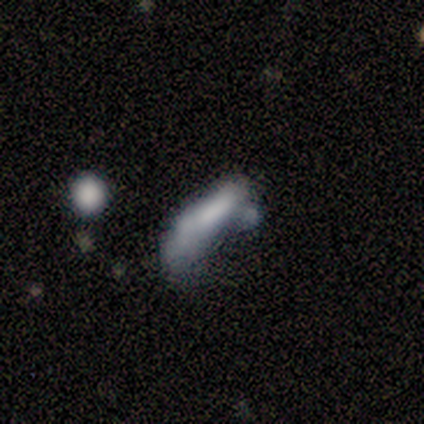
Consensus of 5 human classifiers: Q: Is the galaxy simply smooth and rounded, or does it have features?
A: featured or disk — 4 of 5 (80%).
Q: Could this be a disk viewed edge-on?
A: no — 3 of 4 (75%).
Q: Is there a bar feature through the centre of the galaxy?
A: no — 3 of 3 (100%).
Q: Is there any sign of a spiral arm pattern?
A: no — 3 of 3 (100%).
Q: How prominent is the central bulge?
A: none — 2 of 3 (67%).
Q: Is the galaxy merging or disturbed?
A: major disturbance — 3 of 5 (60%).